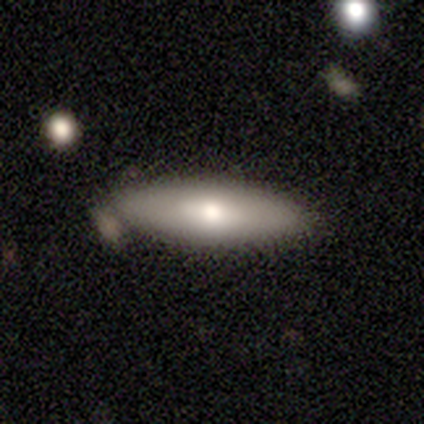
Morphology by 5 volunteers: Smooth or featured?
  - smooth: 60% *
  - featured or disk: 40%
  - star or artifact: 0%
How rounded?
  - in between: 67% *
  - cigar-shaped: 33%
  - round: 0%
Merging?
  - minor disturbance: 40% * (tied)
  - merger: 40% * (tied)
  - none: 20%
  - major disturbance: 0%